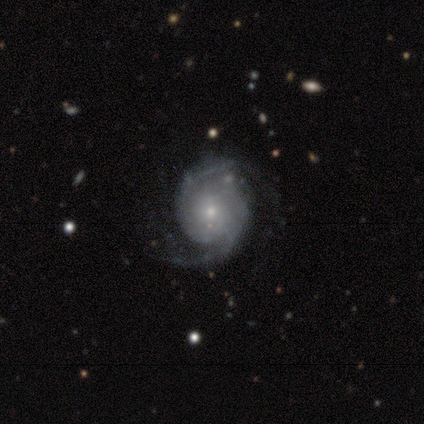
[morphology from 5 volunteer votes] A featured or disk galaxy (100%) with a weak bar (40%, tied with no), 2 (60%) tight (80%) spiral arms (100%) and a small central bulge (100%). Merging: none (60%).